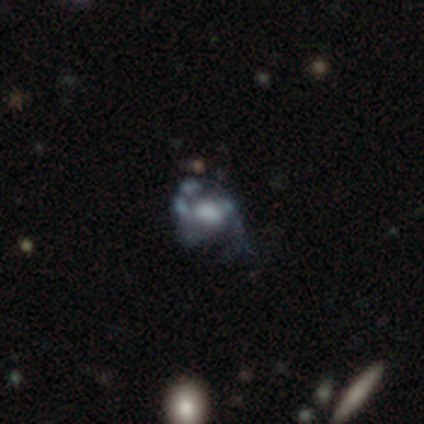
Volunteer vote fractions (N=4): This is likely a featured or disk galaxy (75%). It is clearly not viewed edge-on (100%). Bar: clearly no (100%). Spiral arm pattern: likely no (67%). Central bulge: likely large (67%). Merging: likely major disturbance (75%).